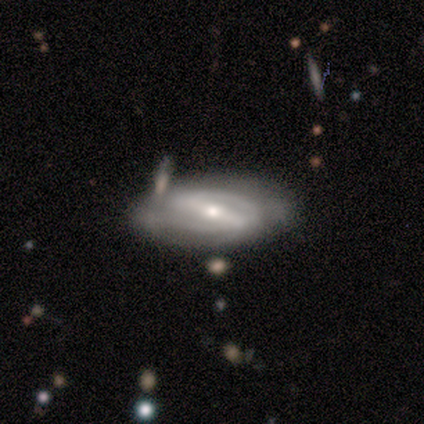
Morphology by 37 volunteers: Smooth or featured? 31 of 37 (84%) said featured or disk. Edge-on disk? 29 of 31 (94%) said no. Bar? 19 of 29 (66%) said strong. Spiral arms? 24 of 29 (83%) said yes. Spiral winding? 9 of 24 (38%) said medium. Spiral arm count? 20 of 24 (83%) said 2. Bulge size? 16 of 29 (55%) said small. Merging? 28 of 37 (76%) said none.